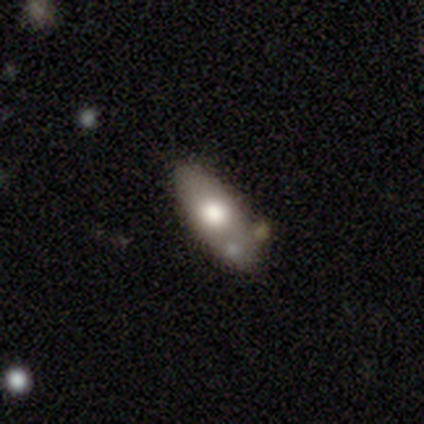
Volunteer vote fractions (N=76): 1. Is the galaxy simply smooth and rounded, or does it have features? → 70% smooth, 28% featured or disk, 3% star or artifact.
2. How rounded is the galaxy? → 89% in between, 9% cigar-shaped, 2% round.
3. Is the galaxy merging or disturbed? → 46% none, 9% minor disturbance, 7% merger, 1% major disturbance.